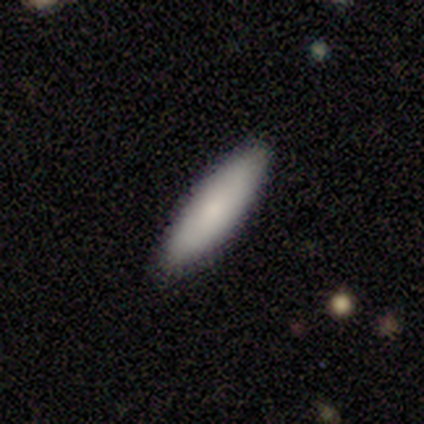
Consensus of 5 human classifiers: Smooth or featured: smooth — 60% (featured or disk — 20%)
How rounded: cigar-shaped — 67% (in between — 33%)
Merging: none — 100%